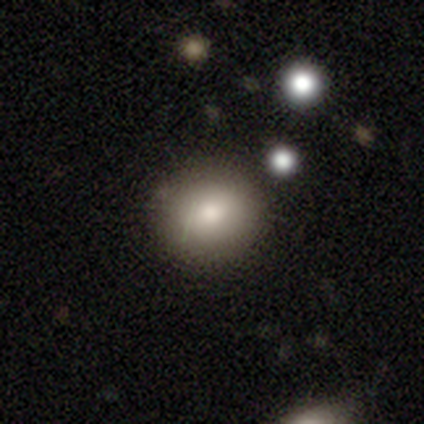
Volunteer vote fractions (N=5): Overall: smooth (80%). How rounded: round (75%). Merging: none (100%).